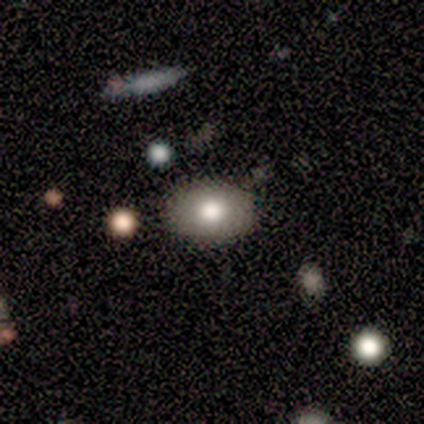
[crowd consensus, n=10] This is clearly a smooth galaxy (80%). How rounded: clearly in between (88%). Merging: likely none (78%).